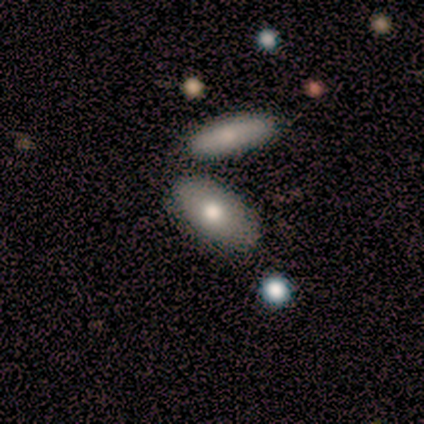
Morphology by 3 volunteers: This is likely a smooth galaxy (67%). How rounded: clearly in between (100%). Merging: clearly minor disturbance (100%).